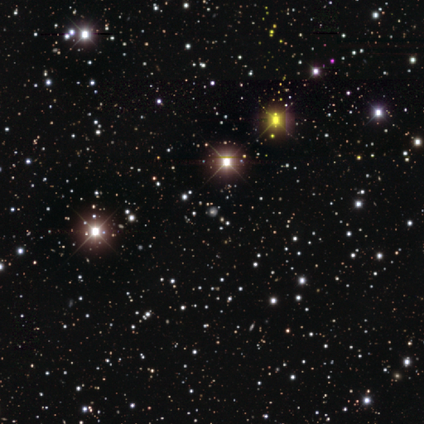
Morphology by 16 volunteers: Smooth or featured?
  - star or artifact: 75% *
  - smooth: 25%
  - featured or disk: 0%